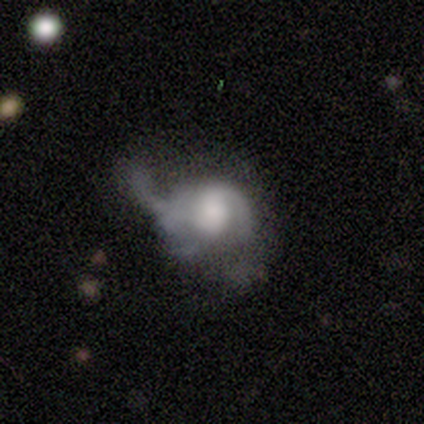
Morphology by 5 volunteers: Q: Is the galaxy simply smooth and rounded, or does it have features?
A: featured or disk — 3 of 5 (60%).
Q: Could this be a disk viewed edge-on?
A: no — 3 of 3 (100%).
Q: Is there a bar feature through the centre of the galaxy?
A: no — 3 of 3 (100%).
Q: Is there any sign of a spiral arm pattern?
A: yes — 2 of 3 (67%).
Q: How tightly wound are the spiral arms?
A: loose — 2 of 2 (100%).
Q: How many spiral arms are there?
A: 1 — 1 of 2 (50%, tied with 2).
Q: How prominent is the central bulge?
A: moderate — 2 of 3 (67%).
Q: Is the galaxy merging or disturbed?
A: major disturbance — 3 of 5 (60%).